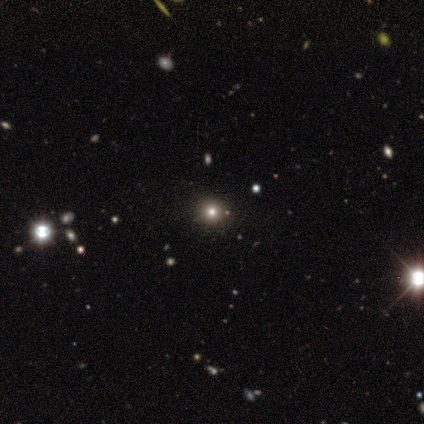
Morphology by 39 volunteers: This appears to be a smooth galaxy with no disk features (51%) that is round (95%). Merging: none (91%).